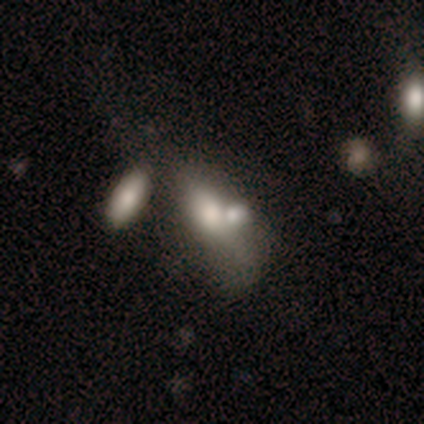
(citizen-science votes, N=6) Smooth or featured?
  - featured or disk: 67% *
  - smooth: 33%
  - star or artifact: 0%
Edge-on disk?
  - no: 100% *
  - yes: 0%
Bar?
  - no: 75% *
  - weak: 25%
  - strong: 0%
Spiral arms?
  - no: 100% *
  - yes: 0%
Bulge size?
  - moderate: 50% *
  - dominant: 25%
  - large: 25%
  - small: 0%
  - none: 0%
Merging?
  - none: 50% * (tied)
  - merger: 50% * (tied)
  - minor disturbance: 0%
  - major disturbance: 0%